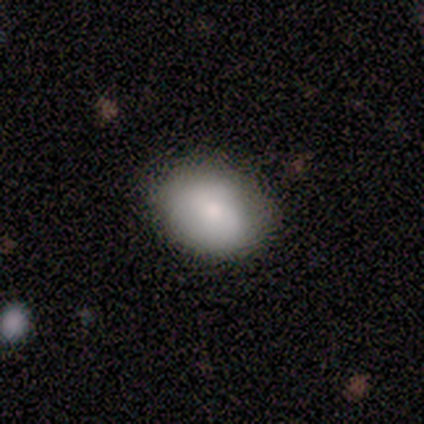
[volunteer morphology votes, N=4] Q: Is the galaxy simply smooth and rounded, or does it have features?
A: smooth — 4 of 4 (100%).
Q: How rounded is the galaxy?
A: round — 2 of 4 (50%, tied with in between).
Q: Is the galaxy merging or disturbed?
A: none — 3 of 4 (75%).